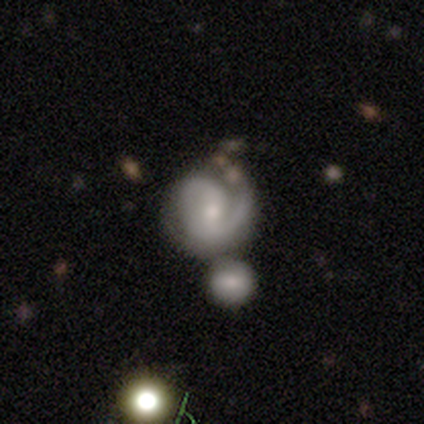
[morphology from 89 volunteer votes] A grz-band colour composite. It shows a featured or disk galaxy (83%) with a weak bar (45%), 2 (57%) medium (46%) spiral arms (97%) and a small central bulge (51%). Merging: none (45%).